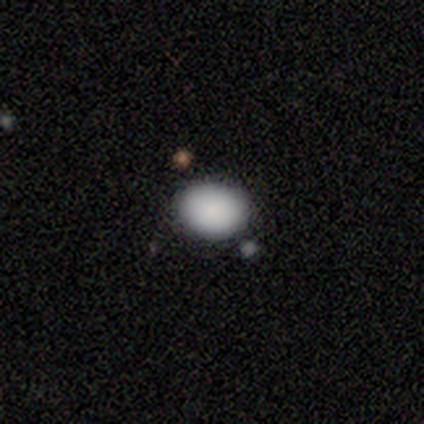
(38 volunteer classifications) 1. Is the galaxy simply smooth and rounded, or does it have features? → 92% smooth, 5% star or artifact, 3% featured or disk.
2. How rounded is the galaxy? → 57% in between, 43% round, 0% cigar-shaped.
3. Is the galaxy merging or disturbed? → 89% none, 6% merger, 3% minor disturbance, 3% major disturbance.